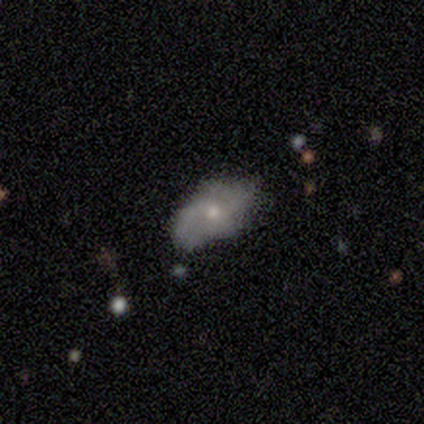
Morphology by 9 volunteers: Volunteers were most divided on "spiral winding" (3-way tie): tight: 33%, medium: 33%, loose: 33%; "bulge size" (2-way tie): moderate: 50%, small: 50%, dominant: 0%, large: 0%, none: 0%. Remaining: edge-on disk — no (100%); merging — none (100%); bar — weak (75%); spiral arms — yes (75%); spiral arm count — 2 (67%); smooth or featured — featured or disk (44%).